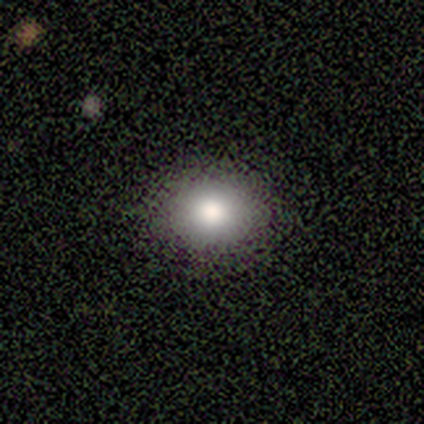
smooth-or-featured: smooth: 75% | star or artifact: 25% | featured or disk: 0%
  how-rounded: round: 67% | in between: 33% | cigar-shaped: 0%
  merging: none: 100% | minor disturbance: 0% | major disturbance: 0% | merger: 0%